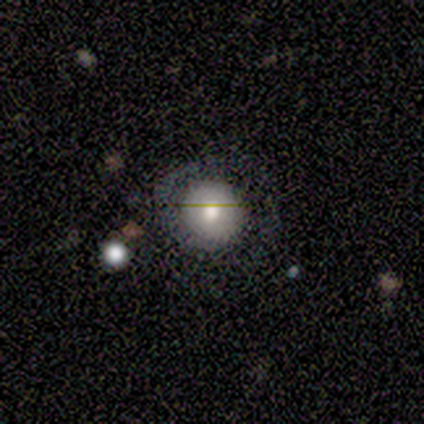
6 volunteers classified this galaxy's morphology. Q: Smooth or featured?
A: smooth (83%); runner-up: featured or disk (17%)
Q: How rounded?
A: round (100%)
Q: Merging?
A: none (50%); runner-up: minor disturbance (33%)